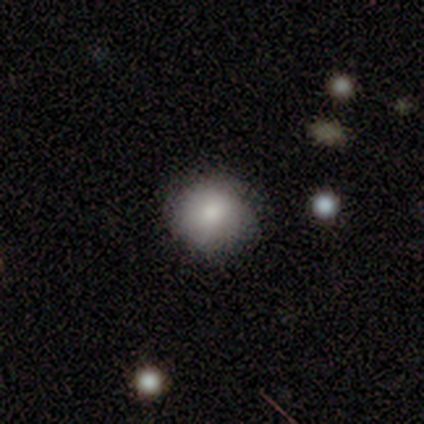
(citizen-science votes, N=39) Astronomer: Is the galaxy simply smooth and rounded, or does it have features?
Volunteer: smooth — 82%.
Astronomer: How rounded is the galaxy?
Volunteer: round — 81%.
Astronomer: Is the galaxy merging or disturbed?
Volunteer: none — 70%.